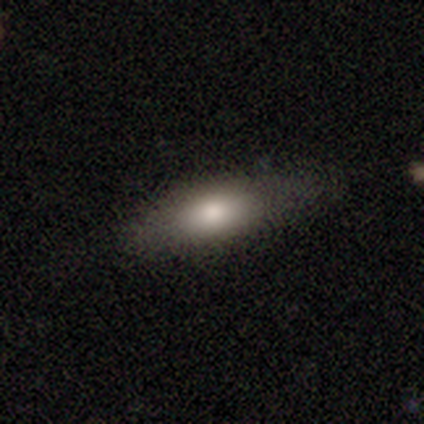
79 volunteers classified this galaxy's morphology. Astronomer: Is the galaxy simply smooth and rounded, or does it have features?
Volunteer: smooth — 76%.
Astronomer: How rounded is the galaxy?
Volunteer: in between — 78%.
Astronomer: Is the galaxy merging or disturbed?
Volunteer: none — 45%.